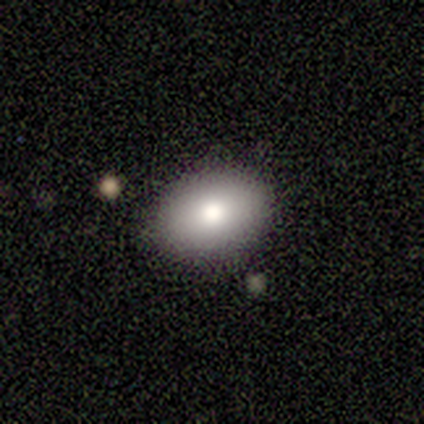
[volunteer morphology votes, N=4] type=smooth (75%); roundness=in between (100%); merging=none (75%).